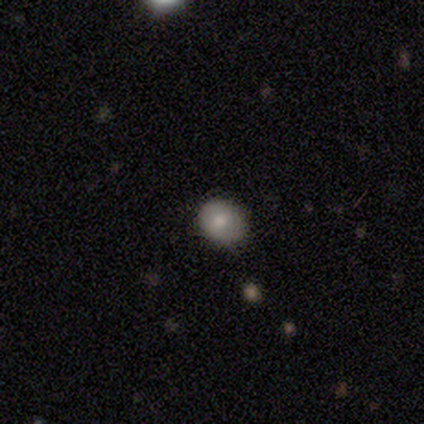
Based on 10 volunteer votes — Morphology: type=smooth (70%); roundness=round (71%); merging=none (78%).